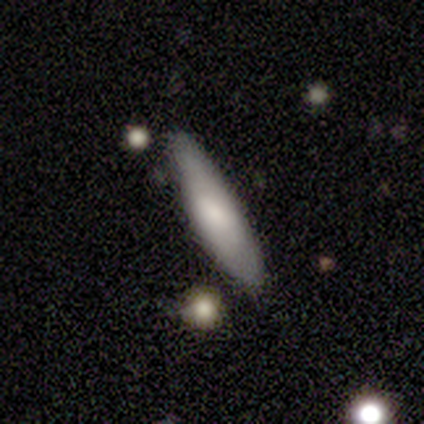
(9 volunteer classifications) Smooth or featured? smooth (67%)
How rounded? cigar-shaped (100%)
Merging? none (75%)